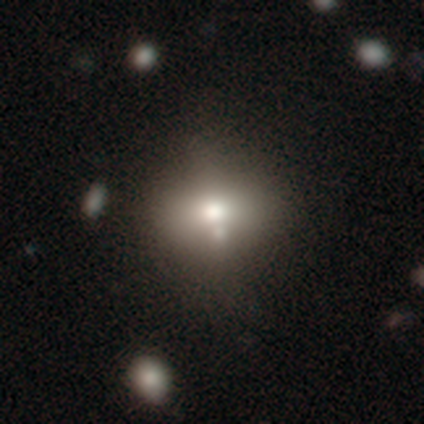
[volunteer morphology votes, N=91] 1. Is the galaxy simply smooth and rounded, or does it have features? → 56% smooth, 22% featured or disk, 22% star or artifact.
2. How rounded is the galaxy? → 63% round, 37% in between, 0% cigar-shaped.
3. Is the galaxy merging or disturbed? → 61% none, 17% minor disturbance, 14% merger, 8% major disturbance.